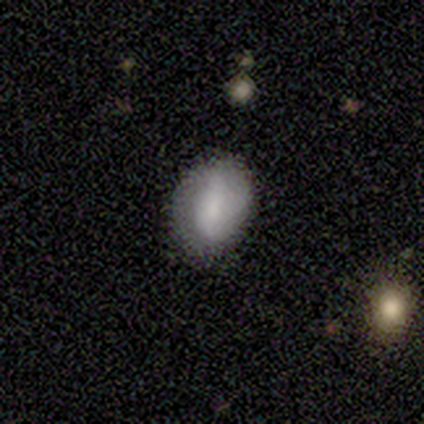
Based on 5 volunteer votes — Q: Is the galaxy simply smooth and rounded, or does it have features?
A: smooth — 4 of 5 (80%).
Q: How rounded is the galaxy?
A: in between — 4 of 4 (100%).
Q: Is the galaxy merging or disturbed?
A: none — 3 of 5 (60%).